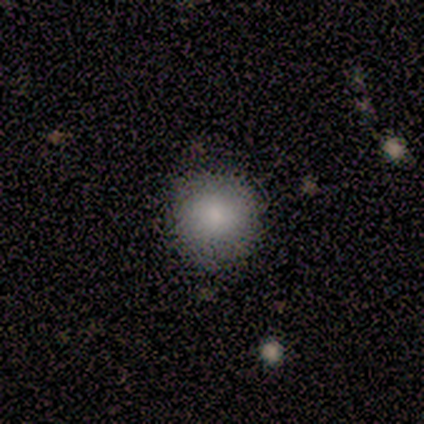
A smooth galaxy with no disk features (100%) that is round (100%).

Vote fractions:
- Smooth or featured? smooth: 100% / featured or disk: 0% / star or artifact: 0%
- How rounded? round: 100% / in between: 0% / cigar-shaped: 0%
- Merging? none: 80% / minor disturbance: 20% / major disturbance: 0% / merger: 0%